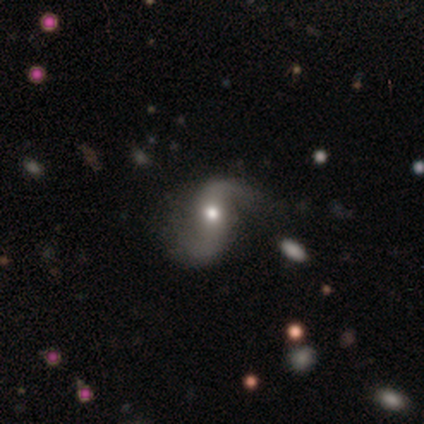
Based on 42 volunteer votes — Smooth or featured? featured or disk (93%)
Edge-on disk? no (95%)
Bar? no (51%)
Spiral arms? yes (86%)
Spiral winding? loose (81%)
Spiral arm count? 2 (97%)
Bulge size? moderate (68%)
Merging? none (44%)